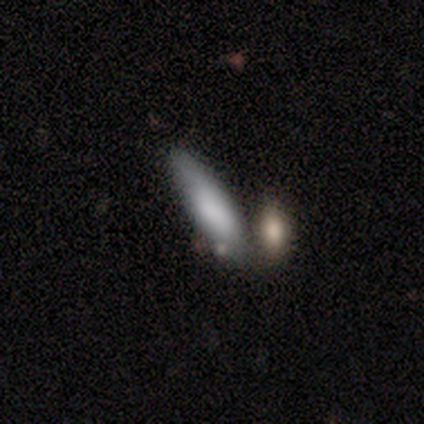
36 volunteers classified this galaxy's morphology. smooth_or_featured: smooth (p=0.83) [alt: star or artifact p=0.11]
how_rounded: in between (p=0.50) [alt: cigar-shaped p=0.47]
merging: merger (p=0.53)